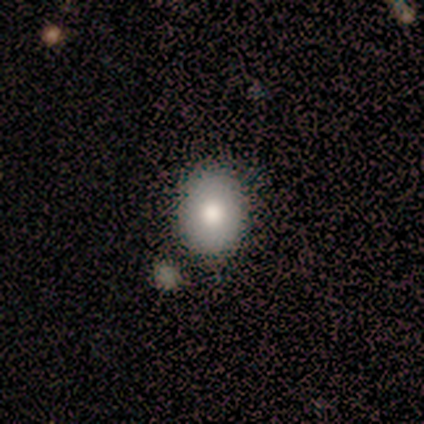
A smooth galaxy with no disk features (88%) that is in between round and cigar-shaped (57%). Merging: none (86%).